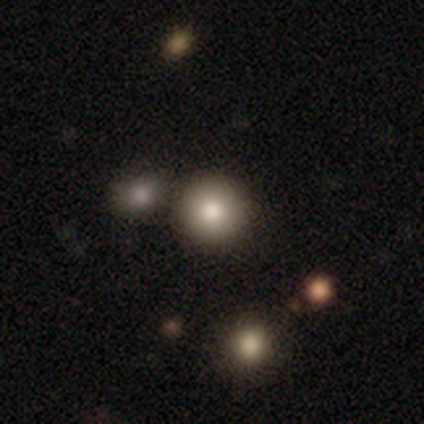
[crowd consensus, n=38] smooth 76%, star or artifact 18%, featured or disk 5%. Down the decision tree: how rounded — round (97%); merging — none (81%).